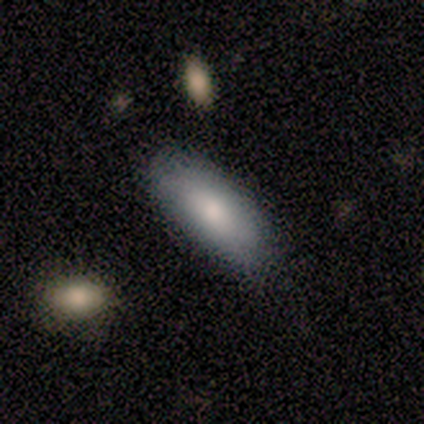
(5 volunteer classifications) Smooth or featured? 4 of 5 (80%) said smooth. How rounded? 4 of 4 (100%) said in between. Merging? 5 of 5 (100%) said none.